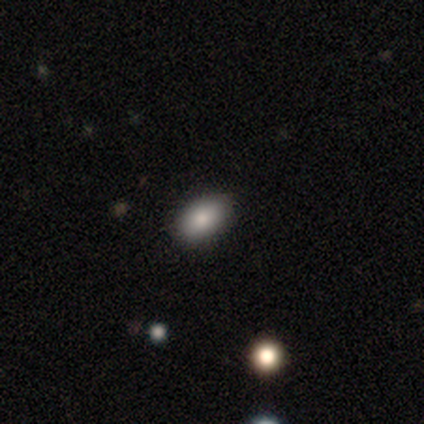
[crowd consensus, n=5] smooth 80%, star or artifact 20%, featured or disk 0%. Down the decision tree: how rounded — in between (100%); merging — none (100%).